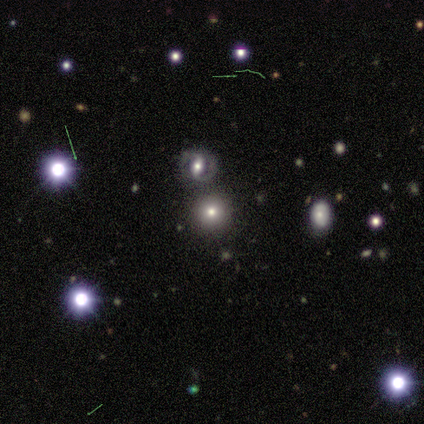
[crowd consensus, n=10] Smooth or featured?
  - smooth: 50% *
  - star or artifact: 30%
  - featured or disk: 20%
How rounded?
  - round: 100% *
  - in between: 0%
  - cigar-shaped: 0%
Merging?
  - none: 71% *
  - merger: 29%
  - minor disturbance: 0%
  - major disturbance: 0%